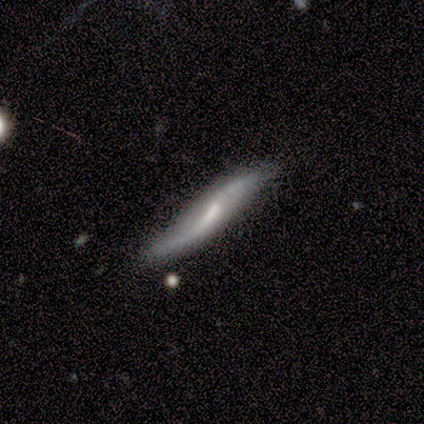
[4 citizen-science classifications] featured or disk 100%, smooth 0%, star or artifact 0%. Down the decision tree: edge-on disk — no (75%); bar — weak (67%); spiral arms — yes (67%); spiral arm count — 2 (100%); spiral winding — loose (100%); bulge size — moderate (100%); merging — none (50%, tied with merger).